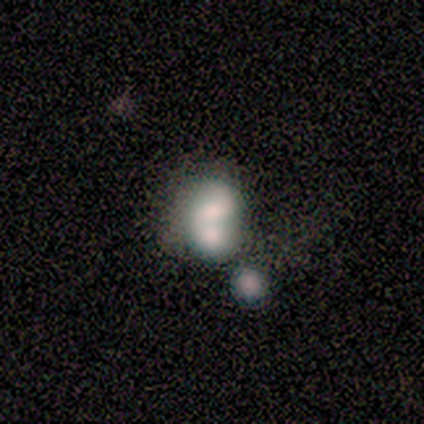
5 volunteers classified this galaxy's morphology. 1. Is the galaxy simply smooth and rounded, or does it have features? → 100% featured or disk, 0% smooth, 0% star or artifact.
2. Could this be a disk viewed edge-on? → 100% no, 0% yes.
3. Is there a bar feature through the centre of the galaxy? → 60% no, 40% strong, 0% weak.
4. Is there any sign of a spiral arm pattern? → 100% no, 0% yes.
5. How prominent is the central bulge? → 40% large (tied), 40% moderate (tied), 20% small, 0% dominant, 0% none.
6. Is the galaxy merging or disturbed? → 80% merger, 20% none, 0% minor disturbance, 0% major disturbance.